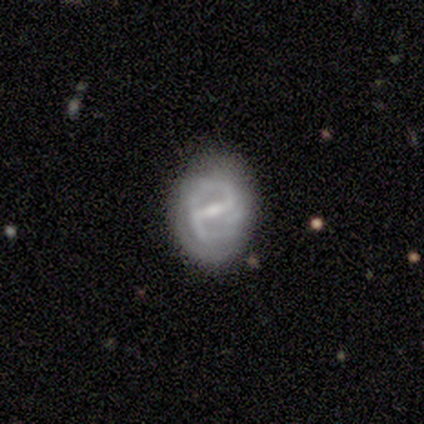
Morphology: type=featured or disk (80%); edge-on=no (100%); bar=strong (75%); spiral arms=yes (75%); winding=tight (67%); arm count=2 (100%); bulge=small (75%); merging=none (60%).